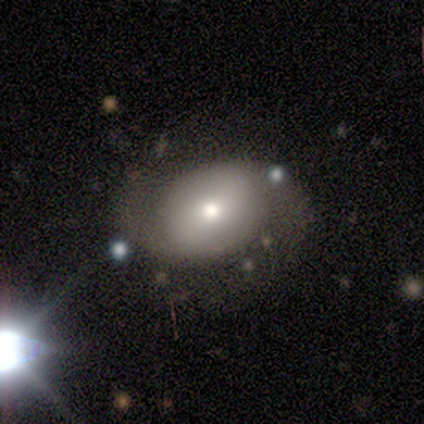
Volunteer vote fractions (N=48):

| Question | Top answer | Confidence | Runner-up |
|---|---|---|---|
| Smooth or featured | featured or disk | 65% | smooth (27%) |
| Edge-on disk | no | 90% | yes (10%) |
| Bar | no | 57% | weak (29%) |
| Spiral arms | yes | 75% | no (25%) |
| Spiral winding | medium | 48% | tight (29%) |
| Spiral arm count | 2 | 95% | can't tell (5%) |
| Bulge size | moderate | 61% | small (21%) |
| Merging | none | 61% | major disturbance (20%) |